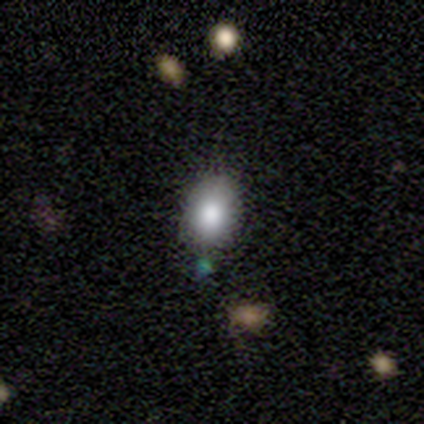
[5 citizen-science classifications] Smooth or featured? smooth (80%)
How rounded? round (50%, tied with in between)
Merging? none (100%)